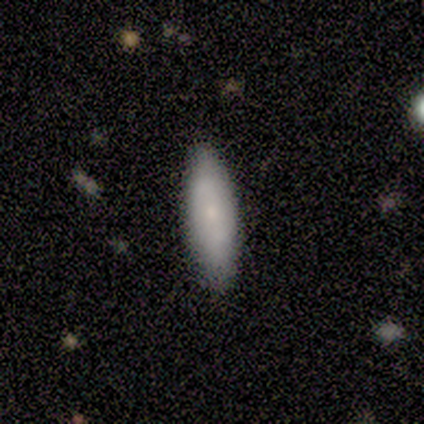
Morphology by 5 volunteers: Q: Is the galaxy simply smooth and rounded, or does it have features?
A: smooth — 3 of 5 (60%).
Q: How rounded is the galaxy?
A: in between — 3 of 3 (100%).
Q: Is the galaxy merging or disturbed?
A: none — 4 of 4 (100%).